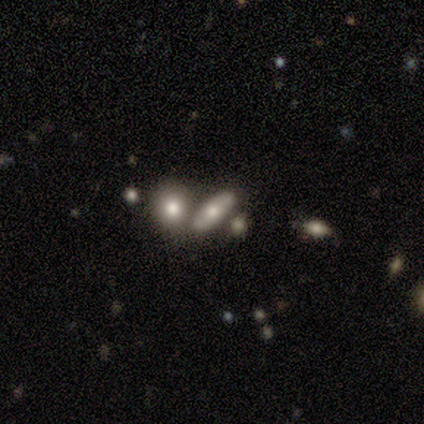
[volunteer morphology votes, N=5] Smooth or featured: smooth — 60% (featured or disk — 40%)
How rounded: in between — 67% (cigar-shaped — 33%)
Merging: none — 60% (merger — 40%)